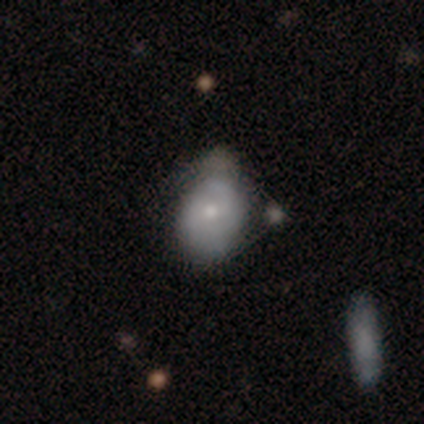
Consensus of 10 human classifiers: Morphology: type=smooth (50%, tied with featured or disk); roundness=in between (80%); merging=none (50%).